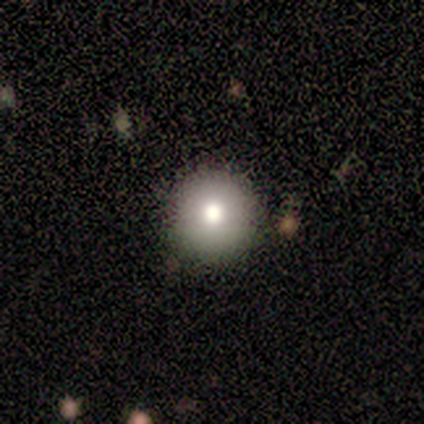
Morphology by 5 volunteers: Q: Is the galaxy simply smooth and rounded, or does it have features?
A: smooth — 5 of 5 (100%).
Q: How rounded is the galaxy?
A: round — 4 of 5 (80%).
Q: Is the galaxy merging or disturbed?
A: none — 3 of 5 (60%).